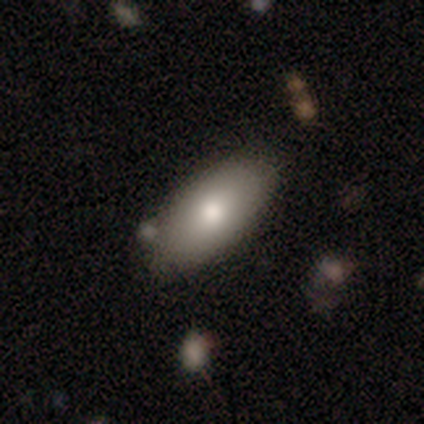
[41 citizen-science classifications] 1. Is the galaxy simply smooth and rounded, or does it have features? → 80% smooth, 12% featured or disk, 7% star or artifact.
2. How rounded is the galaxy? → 94% in between, 3% round, 3% cigar-shaped.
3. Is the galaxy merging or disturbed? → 79% none, 18% minor disturbance, 3% merger, 0% major disturbance.